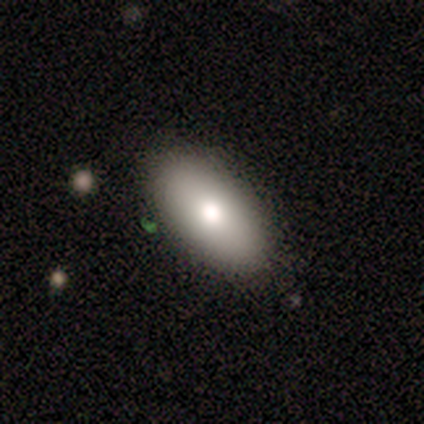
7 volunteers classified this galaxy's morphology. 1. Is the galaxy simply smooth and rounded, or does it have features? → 86% smooth, 14% featured or disk, 0% star or artifact.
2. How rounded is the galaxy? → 100% in between, 0% round, 0% cigar-shaped.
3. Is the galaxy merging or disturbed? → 100% none, 0% minor disturbance, 0% major disturbance, 0% merger.